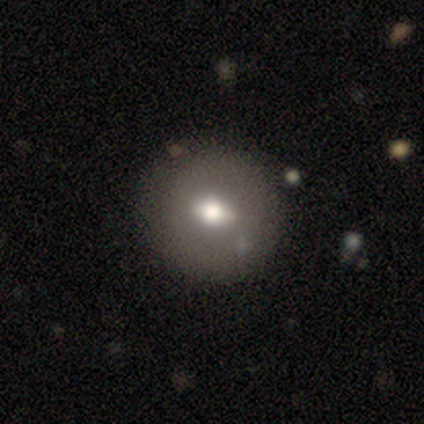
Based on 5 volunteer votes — Smooth or featured? smooth (60%)
How rounded? round (100%)
Merging? none (100%)